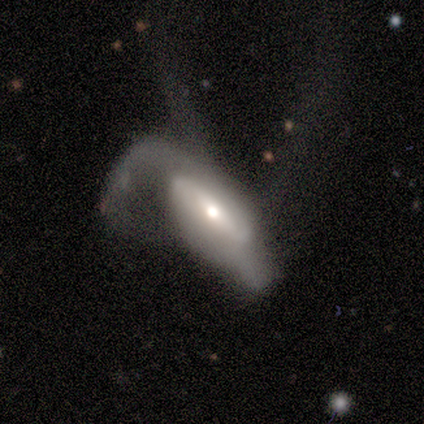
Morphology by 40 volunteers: A featured or disk galaxy (52%) with no bar (41%), 2 (53%) loose (53%) spiral arms (88%) and a moderate central bulge (47%). Merging: major disturbance (70%).